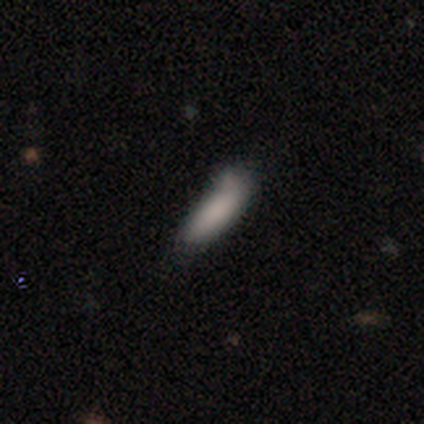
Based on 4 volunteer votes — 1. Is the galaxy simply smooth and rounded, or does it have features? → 100% smooth, 0% featured or disk, 0% star or artifact.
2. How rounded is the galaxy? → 50% in between (tied), 50% cigar-shaped (tied), 0% round.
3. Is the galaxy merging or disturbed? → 50% none (tied), 50% minor disturbance (tied), 0% major disturbance, 0% merger.